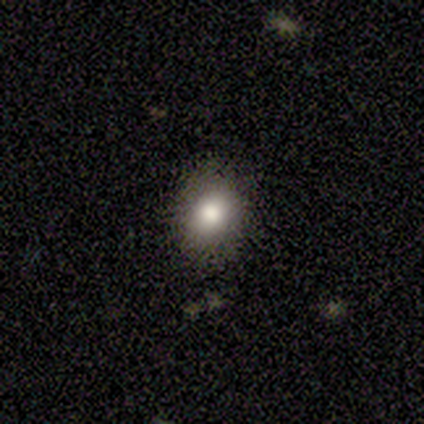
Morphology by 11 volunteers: A smooth galaxy with no disk features (82%) that is round (56%).

Vote fractions:
- Smooth or featured? smooth: 82% / featured or disk: 18% / star or artifact: 0%
- How rounded? round: 56% / in between: 44% / cigar-shaped: 0%
- Merging? none: 91% / major disturbance: 9% / minor disturbance: 0% / merger: 0%